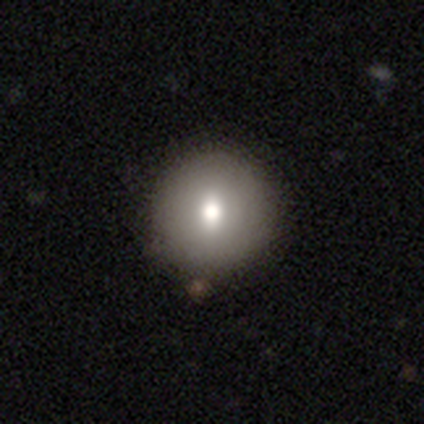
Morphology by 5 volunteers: Volunteers were most divided on "merging": none: 50%, minor disturbance: 25%, merger: 25%, major disturbance: 0%. More confident: how rounded — round (100%); smooth or featured — smooth (80%).